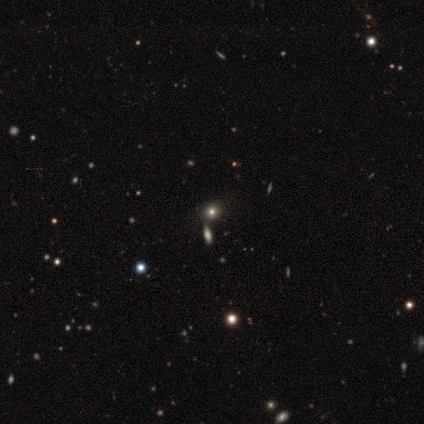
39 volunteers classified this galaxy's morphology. Smooth or featured? 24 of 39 (62%) said smooth. How rounded? 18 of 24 (75%) said round. Merging? 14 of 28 (50%) said none.